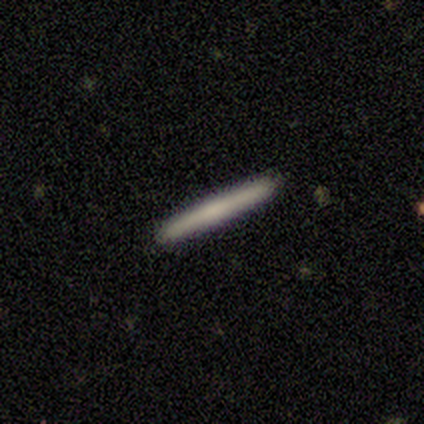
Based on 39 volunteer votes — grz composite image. It shows a smooth galaxy with no disk features (62%) that is cigar-shaped (96%). Merging: none (97%).